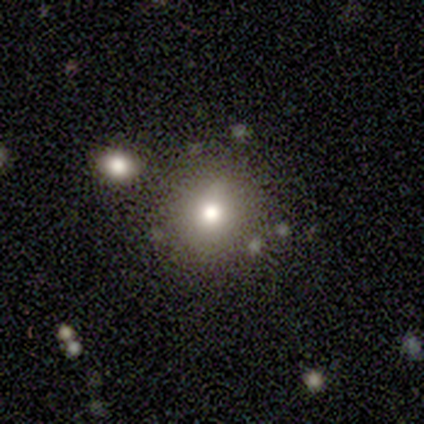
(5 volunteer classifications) This appears to be a smooth galaxy with no disk features (100%) that is round (80%). Merging: minor disturbance (60%).